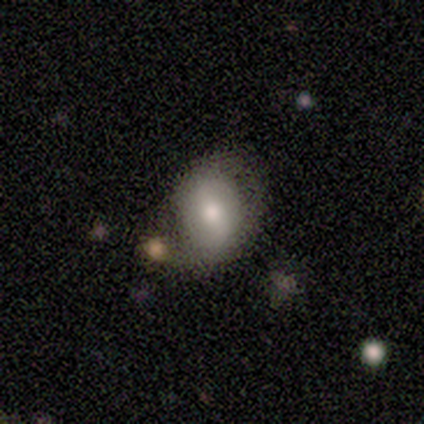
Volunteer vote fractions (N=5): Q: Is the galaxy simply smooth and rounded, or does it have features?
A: smooth — 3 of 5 (60%).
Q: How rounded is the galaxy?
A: in between — 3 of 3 (100%).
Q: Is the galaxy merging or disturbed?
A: none — 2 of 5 (40%, tied with minor disturbance).